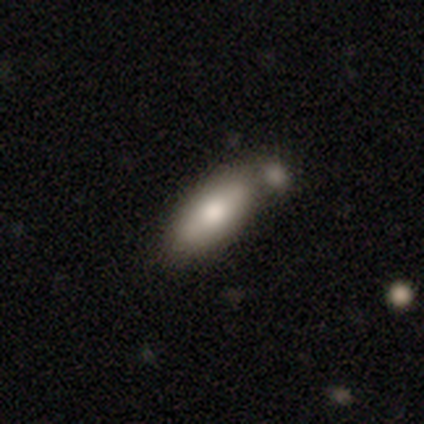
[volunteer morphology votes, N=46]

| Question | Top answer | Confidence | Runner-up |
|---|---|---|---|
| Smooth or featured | smooth | 83% | featured or disk (17%) |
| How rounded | in between | 76% | cigar-shaped (24%) |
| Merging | none | 59% | minor disturbance (20%) |